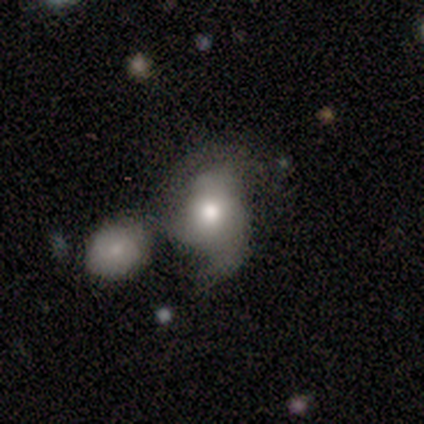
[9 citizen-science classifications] A featured or disk galaxy (67%) with no bar (100%), 2 (75%) loose (50%) spiral arms (67%) and a moderate central bulge (100%).

Vote fractions:
- Smooth or featured? featured or disk: 67% / smooth: 33% / star or artifact: 0%
- Edge-on disk? no: 100% / yes: 0%
- Bar? no: 100% / strong: 0% / weak: 0%
- Spiral arms? yes: 67% / no: 33%
- Spiral winding? loose: 50% / tight: 25% / medium: 25%
- Spiral arm count? 2: 75% / 3: 25% / 1: 0% / 4: 0% / more than 4: 0% / can't tell: 0%
- Bulge size? moderate: 100% / dominant: 0% / large: 0% / small: 0% / none: 0%
- Merging? none: 33% (tied) / merger: 33% (tied) / minor disturbance: 22% / major disturbance: 11%